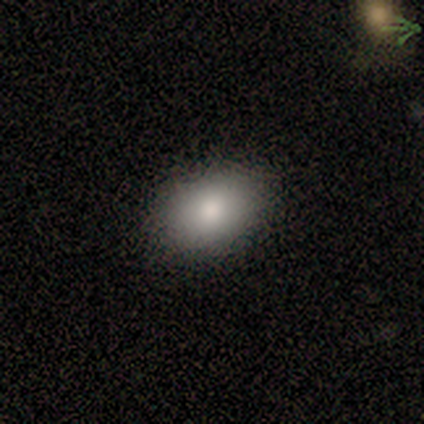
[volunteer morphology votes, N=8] Smooth or featured: smooth — 100%
How rounded: in between — 100%
Merging: none — 88% (minor disturbance — 12%)